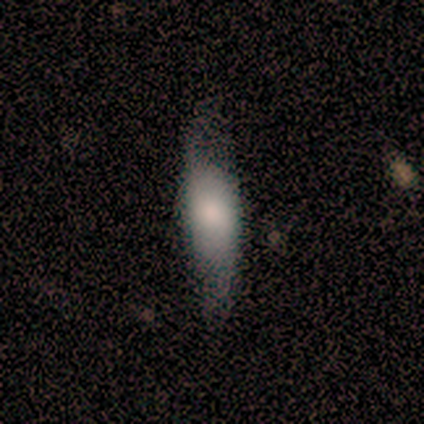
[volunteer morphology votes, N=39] Smooth or featured: smooth — 72% (featured or disk — 21%)
How rounded: in between — 57% (cigar-shaped — 39%)
Merging: none — 47% (major disturbance — 28%)